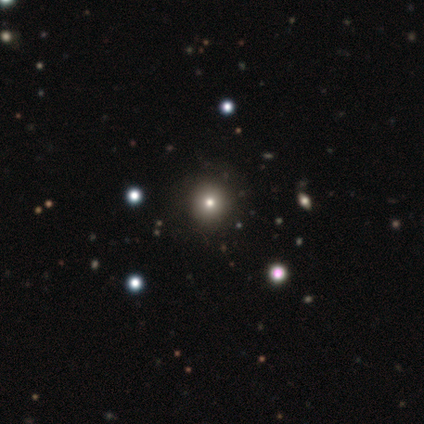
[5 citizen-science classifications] Smooth or featured: smooth — 100%
How rounded: round — 100%
Merging: none — 80% (minor disturbance — 20%)